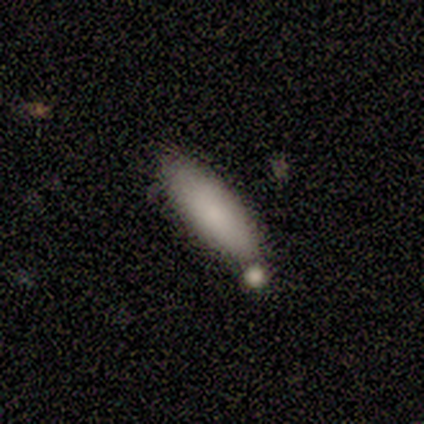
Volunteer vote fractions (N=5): smooth_or_featured: smooth (p=1.00)
how_rounded: in between (p=0.80) [alt: cigar-shaped p=0.20]
merging: none (p=0.60) [alt: minor disturbance p=0.20]